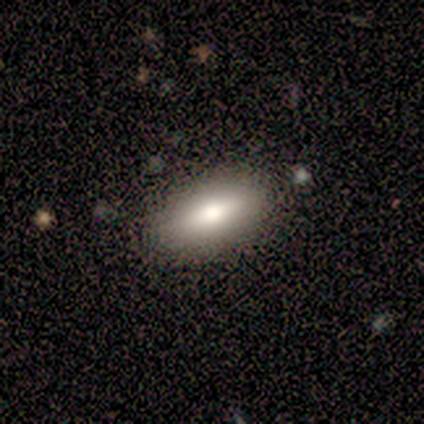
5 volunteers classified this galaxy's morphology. smooth_or_featured: smooth (p=0.80) [alt: featured or disk p=0.20]
how_rounded: in between (p=1.00)
merging: none (p=0.80) [alt: minor disturbance p=0.20]